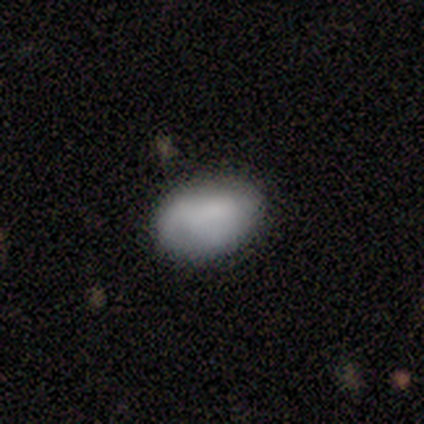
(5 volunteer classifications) Volunteers were most divided on "smooth or featured": smooth: 60%, featured or disk: 40%, star or artifact: 0%. More confident: how rounded — in between (100%); merging — none (80%).